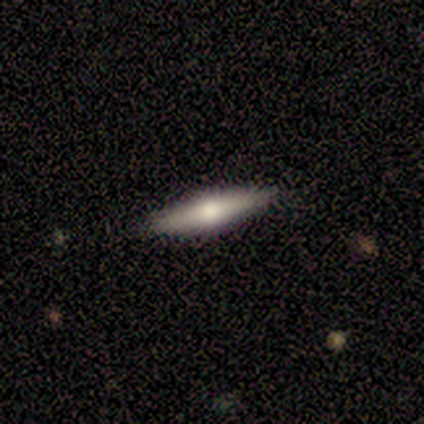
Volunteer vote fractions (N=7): smooth 43% (tied), featured or disk 43% (tied), star or artifact 14%. Down the decision tree: how rounded — cigar-shaped (100%); merging — none (67%).